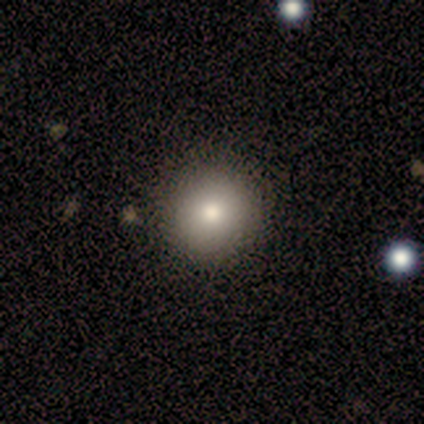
Smooth or featured: smooth — 80% (featured or disk — 20%)
How rounded: round — 100%
Merging: none — 100%